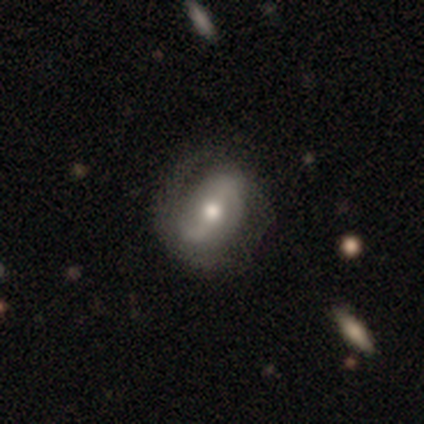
smooth-or-featured: featured or disk: 81% | smooth: 19% | star or artifact: 0%
  disk-edge-on: no: 97% | yes: 3%
    bar: strong: 40% (tied) | weak: 40% (tied) | no: 19%
    has-spiral-arms: yes: 82% | no: 18%
      spiral-winding: loose: 43% | tight: 35% | medium: 22%
      spiral-arm-count: 2: 63% | 1: 20% | can't tell: 18% | 3: 0% | 4: 0% | more than 4: 0%
    bulge-size: moderate: 76% | small: 15% | large: 6% | dominant: 3% | none: 0%
  merging: none: 33% | minor disturbance: 11% | major disturbance: 4% | merger: 4%